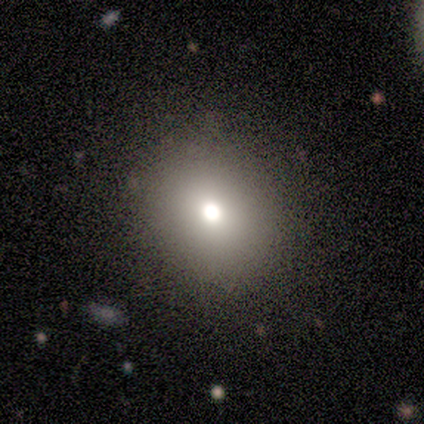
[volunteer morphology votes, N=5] Overall: star or artifact (60%; smooth 40%).